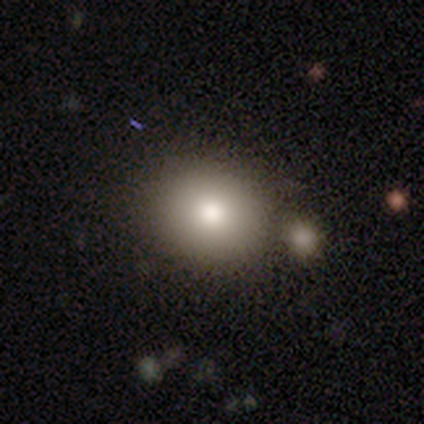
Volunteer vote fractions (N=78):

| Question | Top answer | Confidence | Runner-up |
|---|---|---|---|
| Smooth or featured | smooth | 86% | featured or disk (8%) |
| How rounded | round | 63% | in between (37%) |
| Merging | none | 45% | merger (32%) |